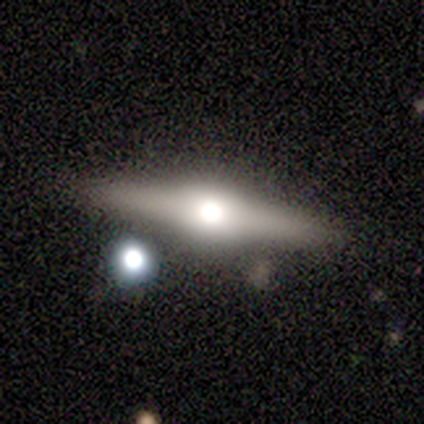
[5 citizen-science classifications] This is clearly a featured or disk galaxy (80%). It is clearly viewed edge-on (100%). Edge-on bulge: clearly rounded (100%). Merging: clearly none (80%).